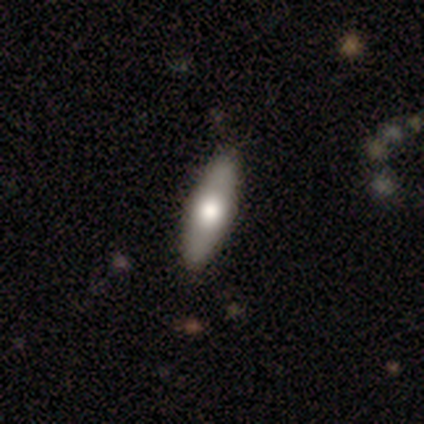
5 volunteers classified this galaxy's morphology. Q: Smooth or featured?
A: smooth (40%); tied with: featured or disk (40%)
Q: How rounded?
A: in between (50%); tied with: cigar-shaped (50%)
Q: Merging?
A: none (75%); runner-up: minor disturbance (25%)